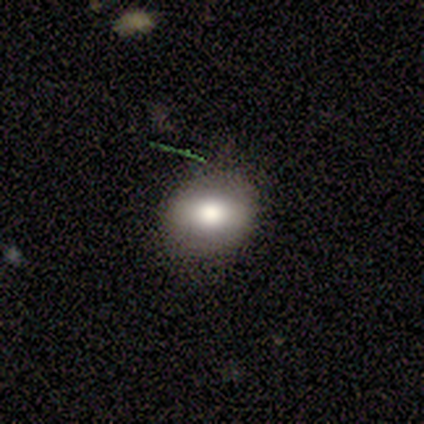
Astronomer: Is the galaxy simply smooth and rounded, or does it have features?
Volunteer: smooth — 68%.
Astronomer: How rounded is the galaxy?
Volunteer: in between — 65%.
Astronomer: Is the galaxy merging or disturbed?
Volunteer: none — 82%.